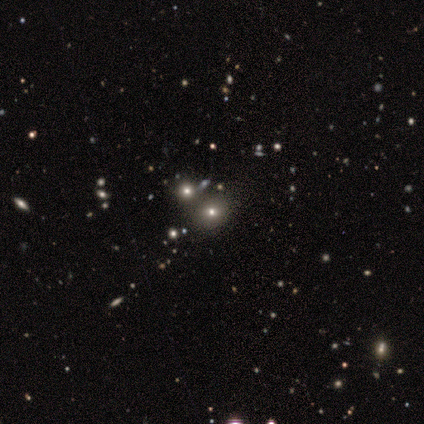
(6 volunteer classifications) Volunteers were most divided on "smooth or featured": star or artifact: 50%, smooth: 33%, featured or disk: 17%.